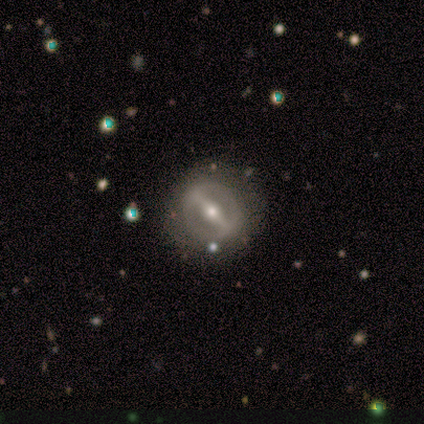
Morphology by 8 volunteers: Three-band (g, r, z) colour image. It shows a featured or disk galaxy (62%) with a strong bar (100%), no spiral arms (100%) and a moderate central bulge (75%). Merging: none (100%).